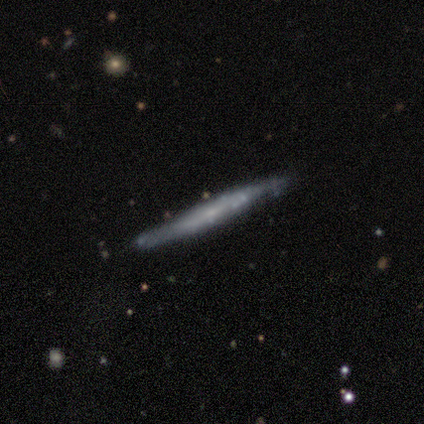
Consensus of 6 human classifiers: smooth 50% (tied), featured or disk 50% (tied), star or artifact 0%. Down the decision tree: how rounded — cigar-shaped (100%); merging — none (83%).